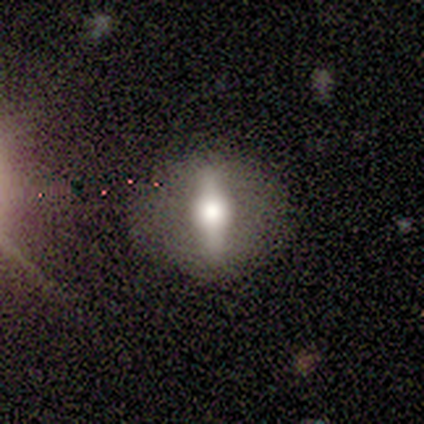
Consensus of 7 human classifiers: Smooth or featured? 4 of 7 (57%) said featured or disk. Edge-on disk? 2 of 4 (50%, tied with no) said yes. Edge-on bulge? 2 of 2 (100%) said rounded. Merging? 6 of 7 (86%) said none.